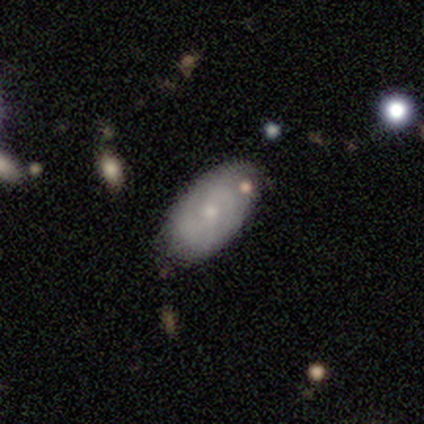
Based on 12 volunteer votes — Overall: smooth (50%, tied with featured or disk). How rounded: in between (100%). Merging: none (83%).